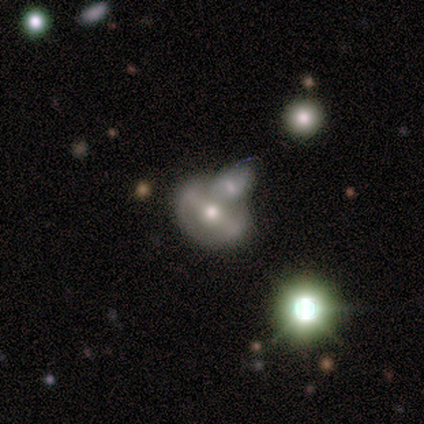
A featured or disk galaxy (80%) with a strong bar (75%), 2 (100%) medium (50%, tied with loose) spiral arms (50%, tied with no) and a moderate central bulge (50%, tied with small).

Vote fractions:
- Smooth or featured? featured or disk: 80% / smooth: 20% / star or artifact: 0%
- Edge-on disk? no: 100% / yes: 0%
- Bar? strong: 75% / weak: 25% / no: 0%
- Spiral arms? yes: 50% (tied) / no: 50% (tied)
- Spiral winding? medium: 50% (tied) / loose: 50% (tied) / tight: 0%
- Spiral arm count? 2: 100% / 1: 0% / 3: 0% / 4: 0% / more than 4: 0% / can't tell: 0%
- Bulge size? moderate: 50% (tied) / small: 50% (tied) / dominant: 0% / large: 0% / none: 0%
- Merging? none: 60% / merger: 40% / minor disturbance: 0% / major disturbance: 0%